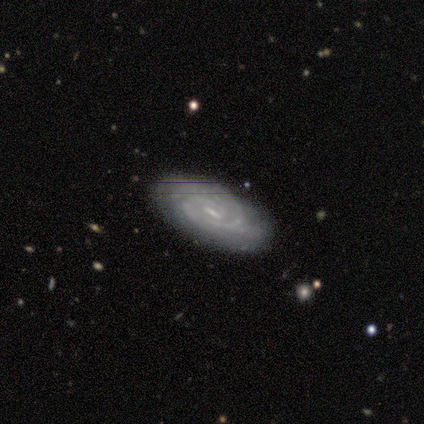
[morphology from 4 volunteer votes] Q: Smooth or featured?
A: featured or disk (100%)
Q: Edge-on disk?
A: no (100%)
Q: Bar?
A: weak (50%); tied with: no (50%)
Q: Spiral arms?
A: yes (100%)
Q: Spiral winding?
A: tight (75%); runner-up: medium (25%)
Q: Spiral arm count?
A: can't tell (50%); runner-up: 2 (25%)
Q: Bulge size?
A: small (75%); runner-up: none (25%)
Q: Merging?
A: none (75%); runner-up: major disturbance (25%)